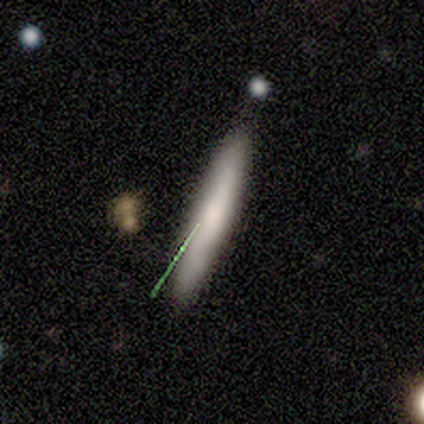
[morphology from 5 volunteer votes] A featured or disk galaxy (60%) viewed edge-on (100%) with a boxy central bulge (33%, tied with none and rounded).

Vote fractions:
- Smooth or featured? featured or disk: 60% / smooth: 40% / star or artifact: 0%
- Edge-on disk? yes: 100% / no: 0%
- Edge-on bulge? boxy: 33% (tied) / none: 33% (tied) / rounded: 33% (tied)
- Merging? minor disturbance: 80% / major disturbance: 20% / none: 0% / merger: 0%